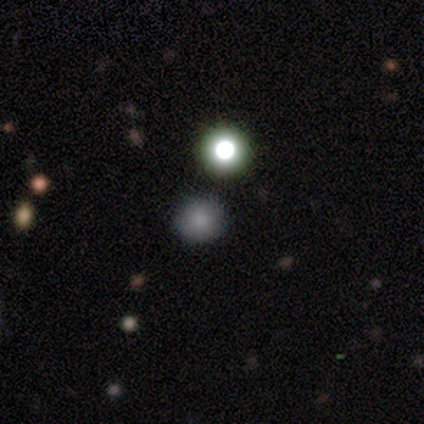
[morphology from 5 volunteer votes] Smooth or featured?
  - star or artifact: 80% *
  - smooth: 20%
  - featured or disk: 0%